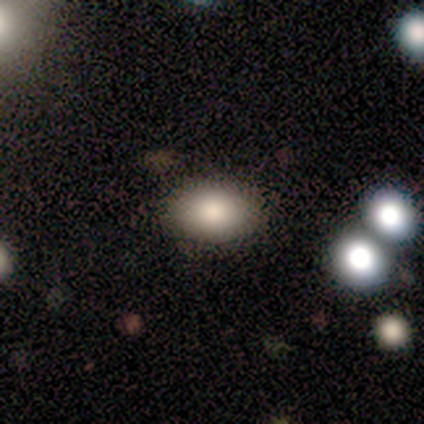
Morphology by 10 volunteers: Smooth or featured: smooth — 80% (featured or disk — 20%)
How rounded: in between — 100%
Merging: none — 100%